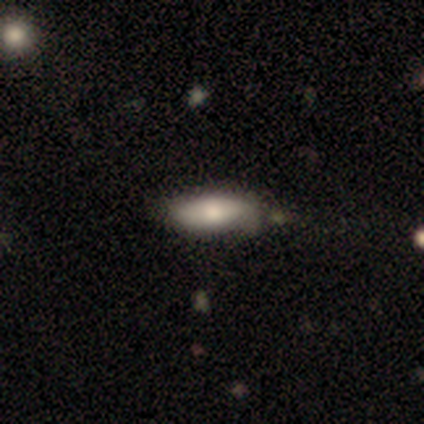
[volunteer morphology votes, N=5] A smooth galaxy with no disk features (80%) that is in between round and cigar-shaped (100%).

Vote fractions:
- Smooth or featured? smooth: 80% / star or artifact: 20% / featured or disk: 0%
- How rounded? in between: 100% / round: 0% / cigar-shaped: 0%
- Merging? none: 50% (tied) / minor disturbance: 50% (tied) / major disturbance: 0% / merger: 0%